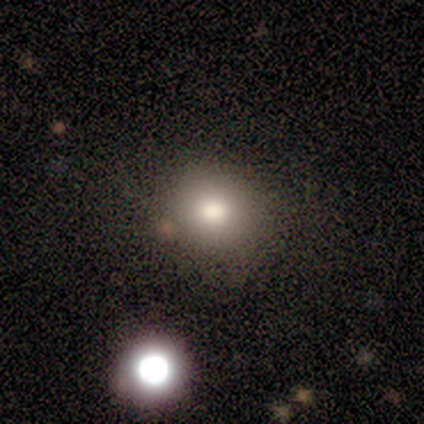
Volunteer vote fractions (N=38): smooth-or-featured: smooth: 66% | featured or disk: 18% | star or artifact: 16%
  how-rounded: round: 88% | in between: 12% | cigar-shaped: 0%
  merging: none: 44% | minor disturbance: 9% | merger: 6% | major disturbance: 0%